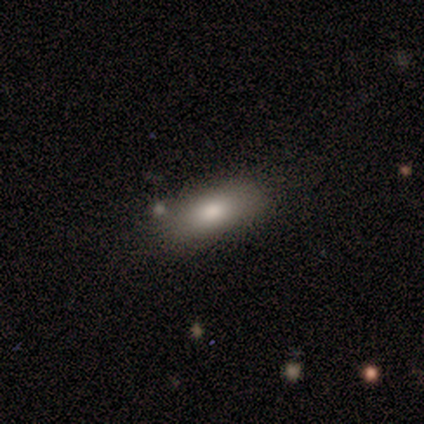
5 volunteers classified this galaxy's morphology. Q: Smooth or featured?
A: smooth (60%); runner-up: featured or disk (20%)
Q: How rounded?
A: in between (100%)
Q: Merging?
A: none (100%)